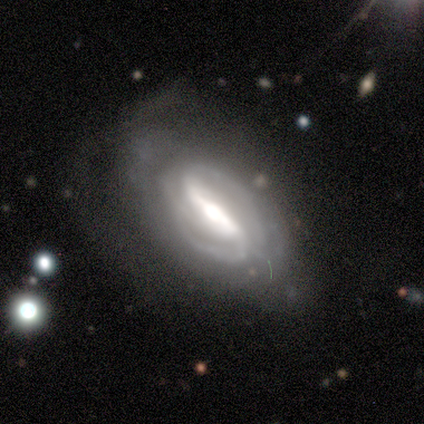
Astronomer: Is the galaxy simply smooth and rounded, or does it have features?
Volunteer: featured or disk — 100%.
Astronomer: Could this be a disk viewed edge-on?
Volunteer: no — 100%.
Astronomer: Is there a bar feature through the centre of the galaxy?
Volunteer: strong — 80%.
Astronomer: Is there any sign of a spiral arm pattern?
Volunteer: yes — 100%.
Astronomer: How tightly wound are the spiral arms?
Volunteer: medium — 80%.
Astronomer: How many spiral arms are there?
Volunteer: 2 — 80%.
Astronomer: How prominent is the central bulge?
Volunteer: moderate — 60% (runner-up: large, 40%).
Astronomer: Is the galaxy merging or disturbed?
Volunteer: none — 100%.